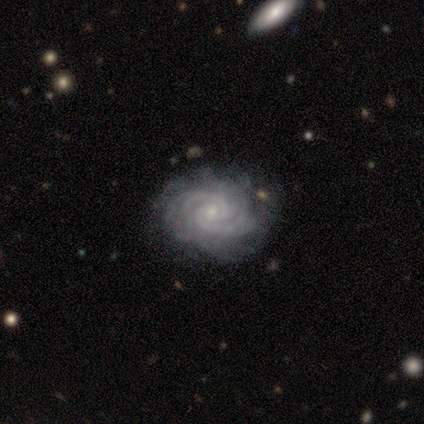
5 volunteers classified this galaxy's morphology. Smooth or featured?
  - featured or disk: 100% *
  - smooth: 0%
  - star or artifact: 0%
Edge-on disk?
  - no: 100% *
  - yes: 0%
Bar?
  - no: 80% *
  - weak: 20%
  - strong: 0%
Spiral arms?
  - yes: 100% *
  - no: 0%
Spiral winding?
  - tight: 100% *
  - medium: 0%
  - loose: 0%
Spiral arm count?
  - 2: 80% *
  - can't tell: 20%
  - 1: 0%
  - 3: 0%
  - 4: 0%
  - more than 4: 0%
Bulge size?
  - small: 80% *
  - moderate: 20%
  - dominant: 0%
  - large: 0%
  - none: 0%
Merging?
  - none: 100% *
  - minor disturbance: 0%
  - major disturbance: 0%
  - merger: 0%